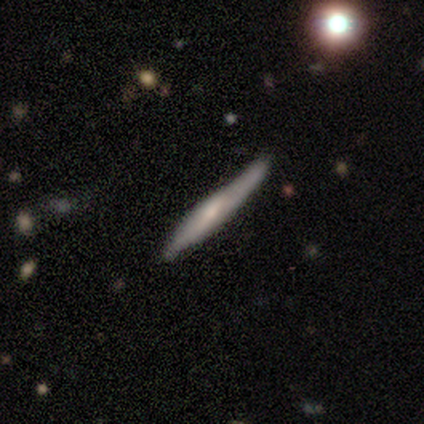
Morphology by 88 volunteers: This appears to be a featured or disk galaxy (53%) viewed edge-on (94%) with a rounded central bulge (61%). Merging: none (74%).